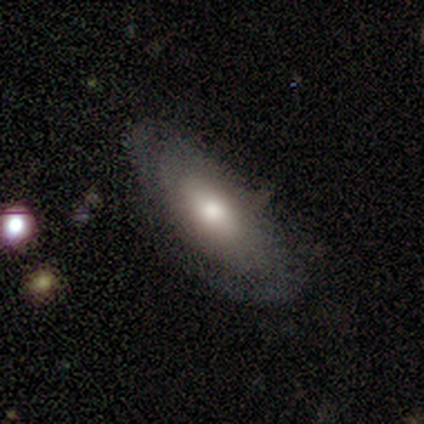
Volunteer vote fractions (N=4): featured or disk 75%, smooth 25%, star or artifact 0%. Down the decision tree: edge-on disk — no (67%); bar — weak (50%, tied with no); spiral arms — no (100%); bulge size — moderate (100%); merging — none (100%).